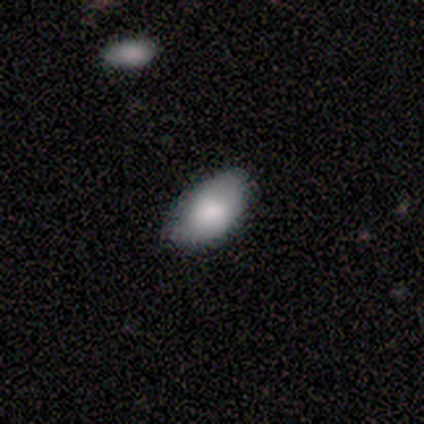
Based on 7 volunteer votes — Volunteers were most divided on "merging": none: 71%, minor disturbance: 29%, major disturbance: 0%, merger: 0%. More confident: smooth or featured — smooth (100%); how rounded — in between (100%).